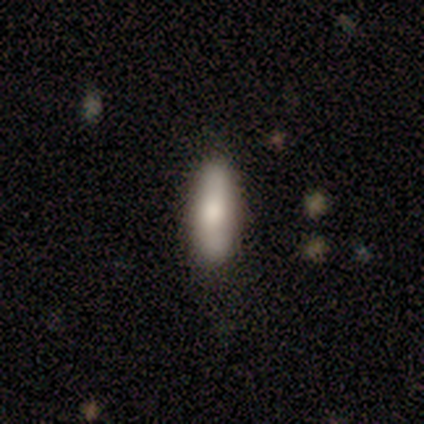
This appears to be a smooth galaxy with no disk features (80%) that is cigar-shaped (75%). Merging: none (100%).